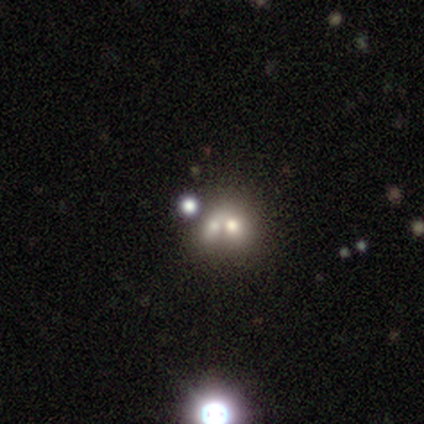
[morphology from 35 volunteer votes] smooth_or_featured: smooth (p=0.43) [alt: featured or disk p=0.34]
how_rounded: in between (p=0.60) [alt: round p=0.40]
merging: merger (p=0.74) [alt: none p=0.19]